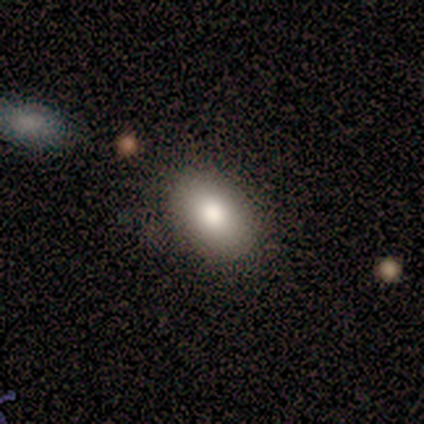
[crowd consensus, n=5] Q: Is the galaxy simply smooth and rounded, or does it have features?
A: smooth — 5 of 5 (100%).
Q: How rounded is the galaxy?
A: in between — 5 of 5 (100%).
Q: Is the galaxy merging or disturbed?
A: none — 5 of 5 (100%).